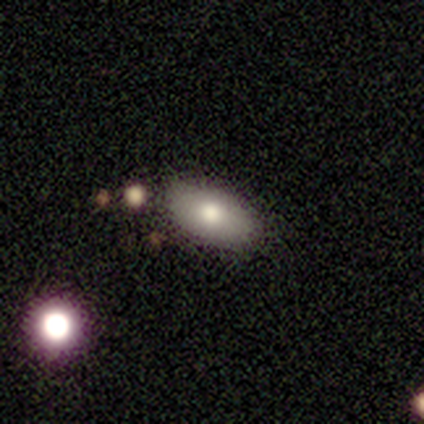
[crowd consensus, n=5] smooth-or-featured: smooth: 40% (tied) | star or artifact: 40% (tied) | featured or disk: 20%
  how-rounded: in between: 100% | round: 0% | cigar-shaped: 0%
  merging: none: 100% | minor disturbance: 0% | major disturbance: 0% | merger: 0%